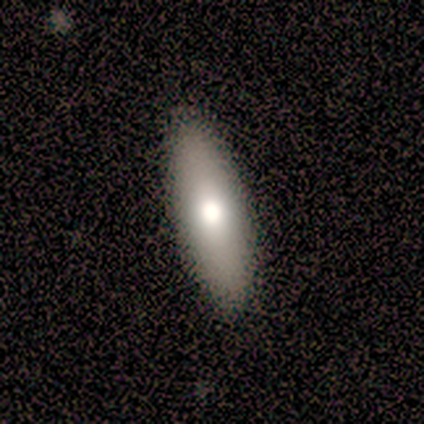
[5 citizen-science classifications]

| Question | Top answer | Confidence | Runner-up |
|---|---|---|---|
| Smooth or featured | smooth | 60% | featured or disk (40%) |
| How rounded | cigar-shaped | 67% | in between (33%) |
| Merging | none | 100% | — |